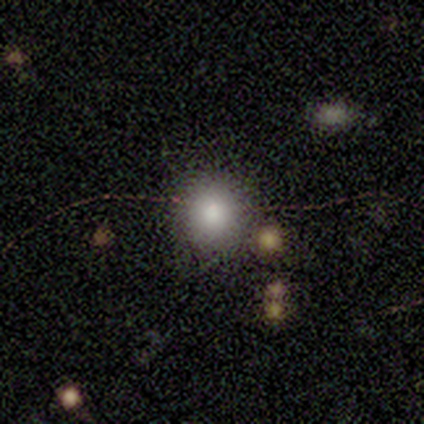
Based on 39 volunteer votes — A smooth galaxy with no disk features (74%) that is round (90%). Merging: none (87%).